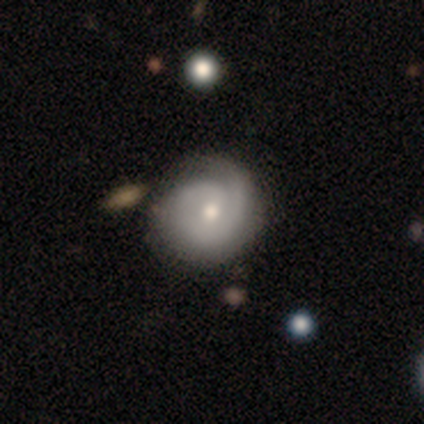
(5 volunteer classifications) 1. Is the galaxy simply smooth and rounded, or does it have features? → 100% featured or disk, 0% smooth, 0% star or artifact.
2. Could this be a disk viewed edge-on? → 100% no, 0% yes.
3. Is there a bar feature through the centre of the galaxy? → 60% weak, 40% no, 0% strong.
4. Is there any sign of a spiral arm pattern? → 100% yes, 0% no.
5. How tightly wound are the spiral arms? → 60% tight, 20% medium, 20% loose.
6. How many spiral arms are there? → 60% can't tell, 20% 1, 20% 2, 0% 3, 0% 4, 0% more than 4.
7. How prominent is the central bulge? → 80% moderate, 20% small, 0% dominant, 0% large, 0% none.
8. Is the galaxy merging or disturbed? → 100% none, 0% minor disturbance, 0% major disturbance, 0% merger.